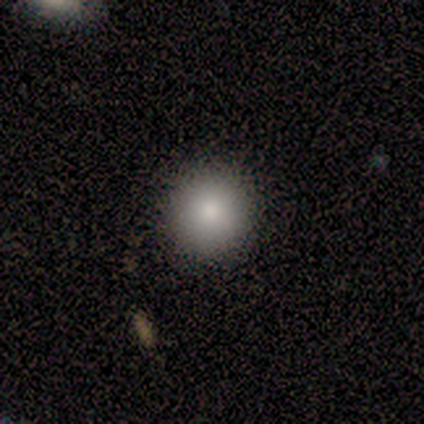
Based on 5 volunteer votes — This appears to be a smooth galaxy with no disk features (80%) that is round (100%). Merging: none (100%).